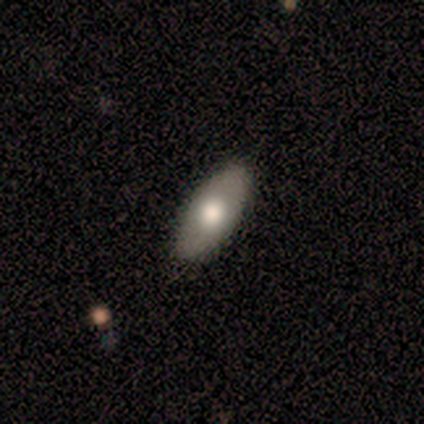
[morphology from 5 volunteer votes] Smooth or featured: smooth — 60% (featured or disk — 40%)
How rounded: in between — 100%
Merging: none — 80% (minor disturbance — 20%)